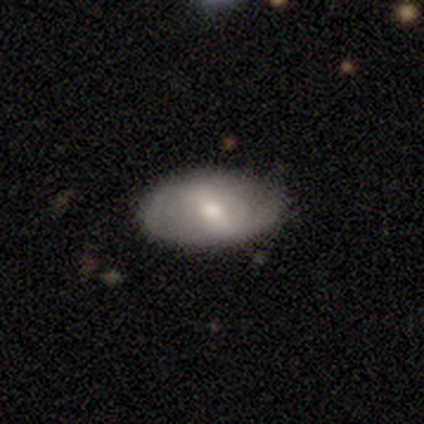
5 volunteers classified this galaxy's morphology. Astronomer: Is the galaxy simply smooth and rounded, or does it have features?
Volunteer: featured or disk — 80%.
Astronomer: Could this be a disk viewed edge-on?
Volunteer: no — 100%.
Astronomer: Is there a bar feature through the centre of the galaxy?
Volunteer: strong — 75%.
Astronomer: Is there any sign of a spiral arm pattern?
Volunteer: yes — 75%.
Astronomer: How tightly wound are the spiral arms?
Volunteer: medium — 67%.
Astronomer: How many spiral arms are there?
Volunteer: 2 — 67%.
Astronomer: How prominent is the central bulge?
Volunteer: moderate — 50%, tied with small at 50%.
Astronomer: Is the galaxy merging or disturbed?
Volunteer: none — 100%.